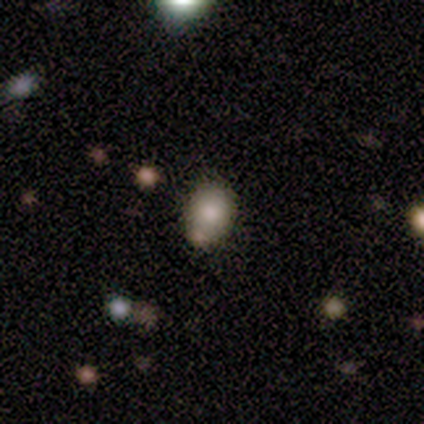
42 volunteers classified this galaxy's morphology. Smooth or featured? 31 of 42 (74%) said smooth. How rounded? 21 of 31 (68%) said in between. Merging? 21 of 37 (57%) said none.